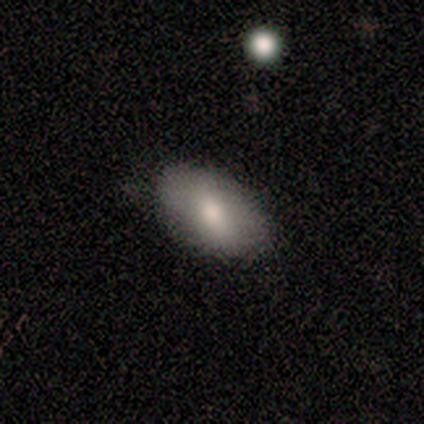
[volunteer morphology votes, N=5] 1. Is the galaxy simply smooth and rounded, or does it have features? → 80% smooth, 20% featured or disk, 0% star or artifact.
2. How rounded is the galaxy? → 100% in between, 0% round, 0% cigar-shaped.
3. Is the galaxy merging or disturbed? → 40% none (tied), 40% minor disturbance (tied), 20% major disturbance, 0% merger.